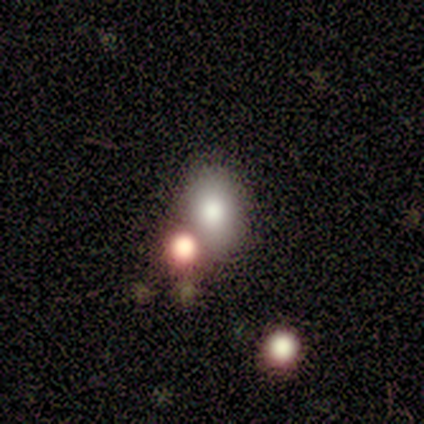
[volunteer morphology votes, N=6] type=smooth (83%); roundness=in between (60%); merging=none (40%, tied with merger).